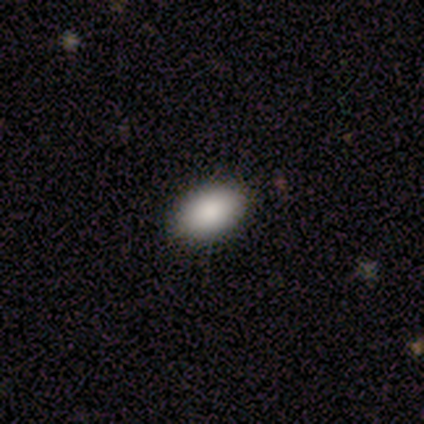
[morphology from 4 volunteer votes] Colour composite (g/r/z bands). It shows a smooth galaxy with no disk features (100%) that is in between round and cigar-shaped (100%). Merging: none (100%).